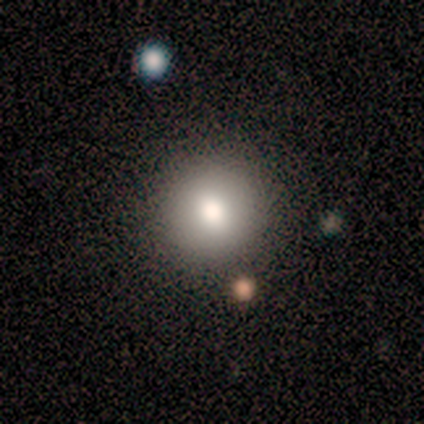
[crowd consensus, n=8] smooth-or-featured: smooth: 62% | star or artifact: 25% | featured or disk: 12%
  how-rounded: round: 100% | in between: 0% | cigar-shaped: 0%
  merging: none: 100% | minor disturbance: 0% | major disturbance: 0% | merger: 0%